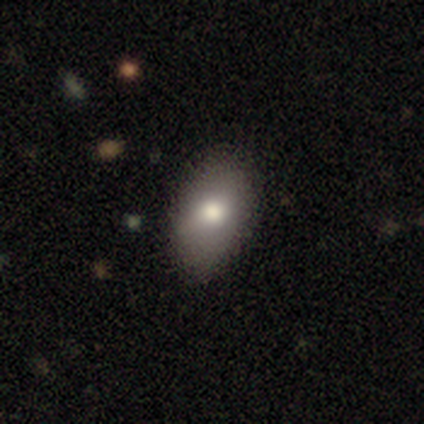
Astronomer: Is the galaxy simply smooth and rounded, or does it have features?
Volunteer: smooth — 87%.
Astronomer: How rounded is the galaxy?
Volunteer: in between — 94%.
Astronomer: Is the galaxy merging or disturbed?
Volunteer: none — 76%.